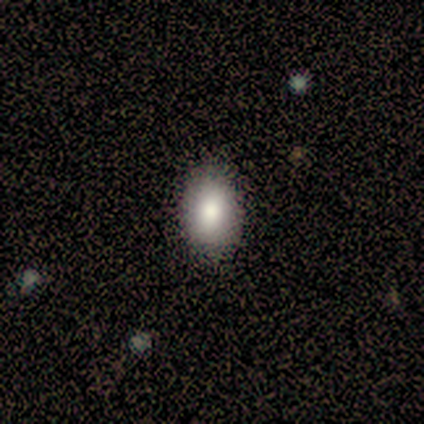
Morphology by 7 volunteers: A smooth galaxy with no disk features (100%) that is in between round and cigar-shaped (86%).

Vote fractions:
- Smooth or featured? smooth: 100% / featured or disk: 0% / star or artifact: 0%
- How rounded? in between: 86% / round: 14% / cigar-shaped: 0%
- Merging? none: 86% / minor disturbance: 14% / major disturbance: 0% / merger: 0%